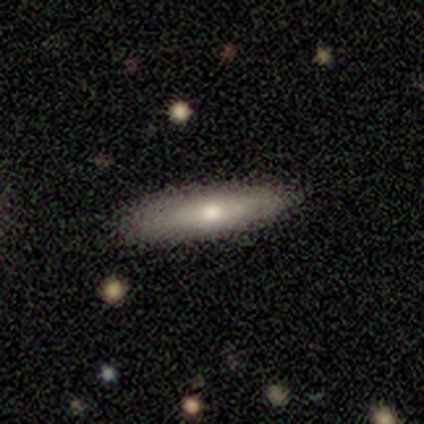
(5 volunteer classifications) Smooth or featured: smooth — 80% (featured or disk — 20%)
How rounded: in between — 50% (tied with cigar-shaped — 50%)
Merging: none — 60% (minor disturbance — 40%)